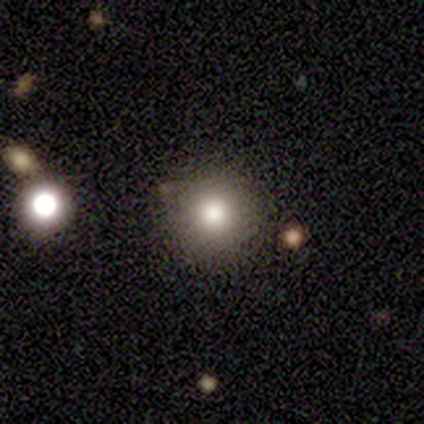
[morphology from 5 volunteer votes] Smooth or featured: smooth — 60% (featured or disk — 40%)
How rounded: round — 100%
Merging: none — 80% (minor disturbance — 20%)